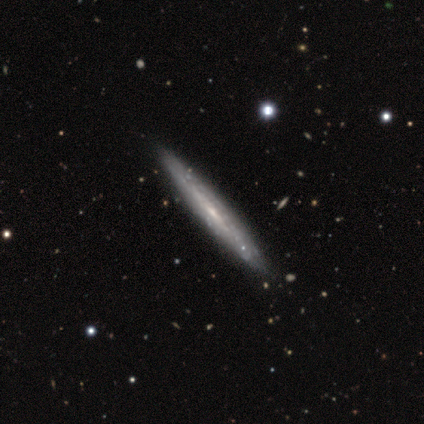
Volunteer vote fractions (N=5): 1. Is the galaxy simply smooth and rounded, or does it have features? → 80% featured or disk, 20% smooth, 0% star or artifact.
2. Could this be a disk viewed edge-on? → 75% yes, 25% no.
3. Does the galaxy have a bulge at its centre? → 67% rounded, 33% none, 0% boxy.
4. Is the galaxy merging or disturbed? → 60% none, 40% minor disturbance, 0% major disturbance, 0% merger.